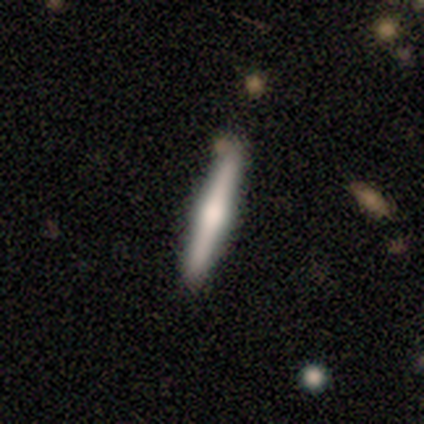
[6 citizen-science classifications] Q: Smooth or featured?
A: featured or disk (83%); runner-up: smooth (17%)
Q: Edge-on disk?
A: yes (100%)
Q: Edge-on bulge?
A: rounded (100%)
Q: Merging?
A: none (67%); runner-up: minor disturbance (33%)